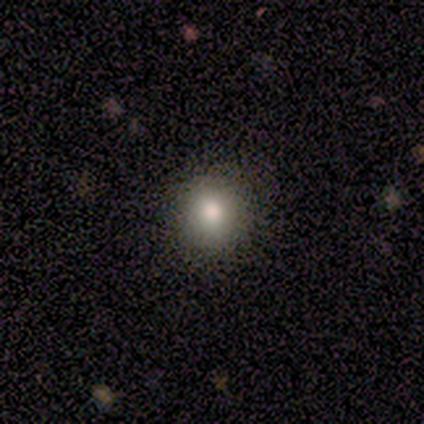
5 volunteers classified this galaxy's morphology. This appears to be a smooth galaxy with no disk features (100%) that is round (100%). Merging: none (80%).